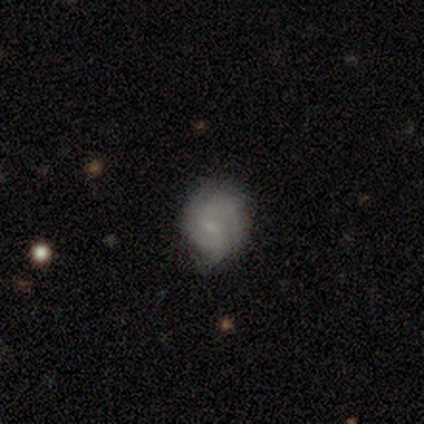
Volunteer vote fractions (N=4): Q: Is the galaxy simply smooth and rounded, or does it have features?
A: featured or disk — 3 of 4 (75%).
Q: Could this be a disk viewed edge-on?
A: no — 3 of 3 (100%).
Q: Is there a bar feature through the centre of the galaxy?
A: no — 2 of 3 (67%).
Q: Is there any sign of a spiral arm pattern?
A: yes — 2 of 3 (67%).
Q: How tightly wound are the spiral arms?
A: tight — 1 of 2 (50%, tied with medium).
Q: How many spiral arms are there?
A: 1 — 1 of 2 (50%, tied with can't tell).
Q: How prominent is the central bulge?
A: small — 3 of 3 (100%).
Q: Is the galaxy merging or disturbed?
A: none — 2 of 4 (50%, tied with minor disturbance).